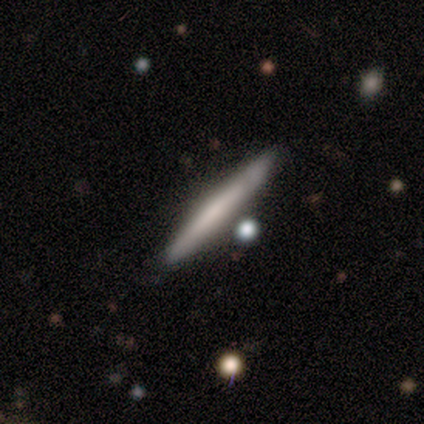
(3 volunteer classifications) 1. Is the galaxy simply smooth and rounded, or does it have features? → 67% smooth, 33% featured or disk, 0% star or artifact.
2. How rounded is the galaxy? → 50% round (tied), 50% cigar-shaped (tied), 0% in between.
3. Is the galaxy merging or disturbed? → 67% none, 33% major disturbance, 0% minor disturbance, 0% merger.